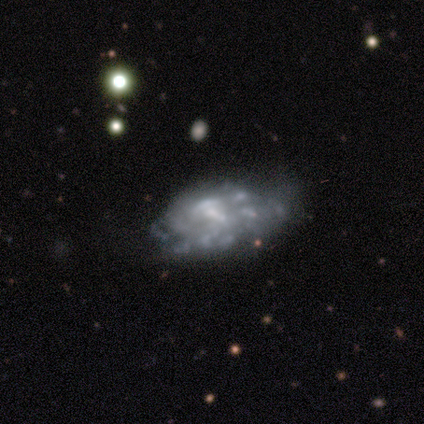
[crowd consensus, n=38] Smooth or featured?
  - featured or disk: 89% *
  - smooth: 8%
  - star or artifact: 3%
Edge-on disk?
  - no: 100% *
  - yes: 0%
Bar?
  - no: 56% *
  - weak: 35%
  - strong: 9%
Spiral arms?
  - yes: 50% * (tied)
  - no: 50% * (tied)
Spiral winding?
  - medium: 35% * (tied)
  - loose: 35% * (tied)
  - tight: 29%
Spiral arm count?
  - can't tell: 88% *
  - more than 4: 12%
  - 1: 0%
  - 2: 0%
  - 3: 0%
  - 4: 0%
Bulge size?
  - small: 50% *
  - none: 32%
  - moderate: 18%
  - dominant: 0%
  - large: 0%
Merging?
  - none: 27% * (tied)
  - major disturbance: 27% * (tied)
  - minor disturbance: 22%
  - merger: 8%